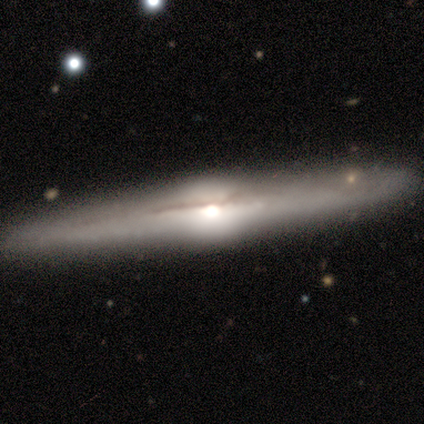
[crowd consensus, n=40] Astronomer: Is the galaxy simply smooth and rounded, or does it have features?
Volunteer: featured or disk — 90%.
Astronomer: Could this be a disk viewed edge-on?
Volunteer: yes — 97%.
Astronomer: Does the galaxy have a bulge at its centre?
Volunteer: rounded — 91%.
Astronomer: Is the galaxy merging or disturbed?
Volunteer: none — 62%.